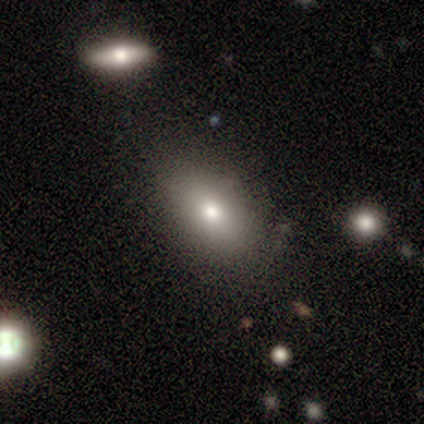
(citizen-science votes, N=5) A smooth galaxy with no disk features (100%) that is in between round and cigar-shaped (80%).

Vote fractions:
- Smooth or featured? smooth: 100% / featured or disk: 0% / star or artifact: 0%
- How rounded? in between: 80% / round: 20% / cigar-shaped: 0%
- Merging? none: 80% / major disturbance: 20% / minor disturbance: 0% / merger: 0%